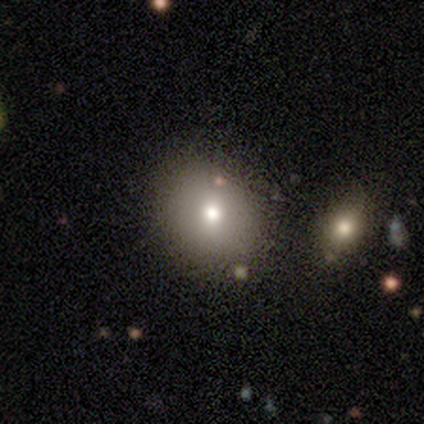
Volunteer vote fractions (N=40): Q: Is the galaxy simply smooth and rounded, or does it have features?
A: smooth — 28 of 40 (70%).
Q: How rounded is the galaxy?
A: round — 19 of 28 (68%).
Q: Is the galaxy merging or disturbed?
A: none — 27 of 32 (84%).